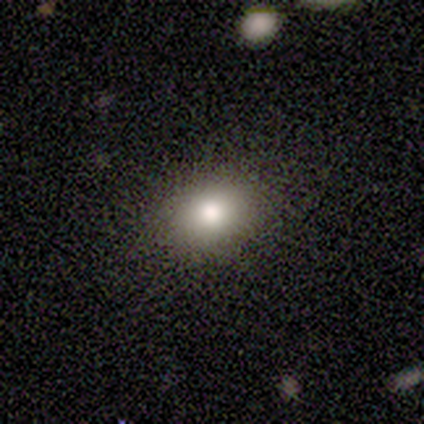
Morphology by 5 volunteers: A smooth galaxy with no disk features (100%) that is in between round and cigar-shaped (80%). Merging: none (100%).